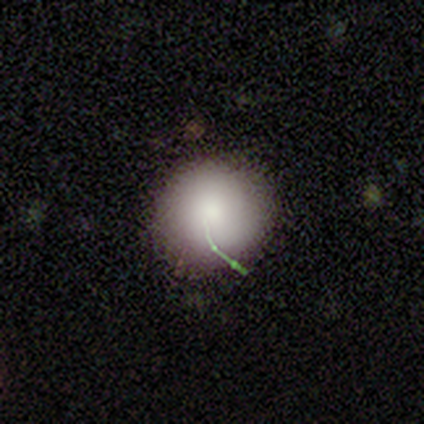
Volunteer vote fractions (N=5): smooth 80%, star or artifact 20%, featured or disk 0%. Down the decision tree: how rounded — round (100%); merging — none (75%).